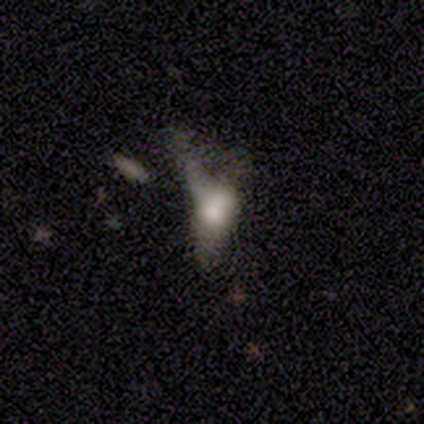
A featured or disk galaxy (80%) with no bar (100%), no spiral arms (100%) and a moderate central bulge (50%). Merging: none (40%, tied with merger).